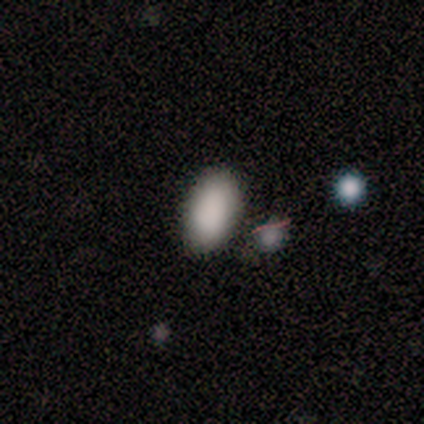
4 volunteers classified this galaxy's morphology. Q: Smooth or featured?
A: smooth (100%)
Q: How rounded?
A: in between (100%)
Q: Merging?
A: none (100%)